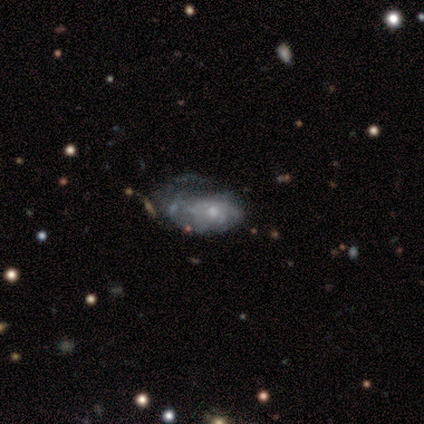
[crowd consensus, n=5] smooth_or_featured: featured or disk (p=0.40) [tied with: star or artifact p=0.40]
disk_edge_on: no (p=1.00)
bar: weak (p=0.50) [tied with: no p=0.50]
has_spiral_arms: yes (p=1.00)
spiral_winding: tight (p=1.00)
spiral_arm_count: 4 (p=0.50) [tied with: can't tell p=0.50]
bulge_size: moderate (p=0.50) [tied with: small p=0.50]
merging: major disturbance (p=0.67) [alt: minor disturbance p=0.33]